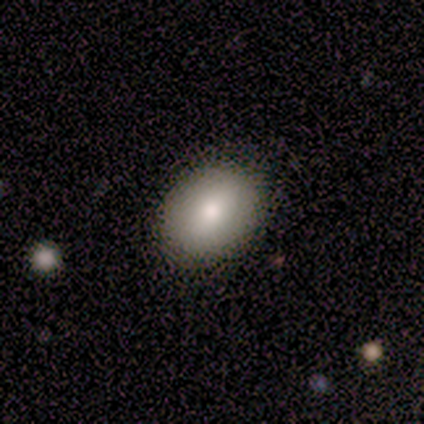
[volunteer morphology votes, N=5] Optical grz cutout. It shows a smooth galaxy with no disk features (40%, tied with featured or disk) that is round (50%, tied with in between). Merging: none (100%).